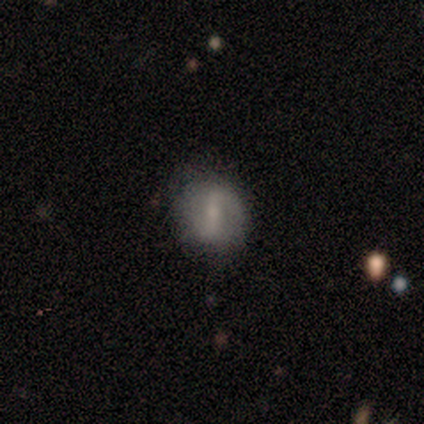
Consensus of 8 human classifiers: smooth_or_featured: featured or disk (p=0.62) [alt: smooth p=0.38]
disk_edge_on: no (p=1.00)
bar: weak (p=0.80) [alt: strong p=0.20]
has_spiral_arms: yes (p=0.60) [alt: no p=0.40]
spiral_winding: loose (p=0.67) [alt: medium p=0.33]
spiral_arm_count: 2 (p=1.00)
bulge_size: small (p=0.80) [alt: moderate p=0.20]
merging: none (p=0.88) [alt: minor disturbance p=0.12]